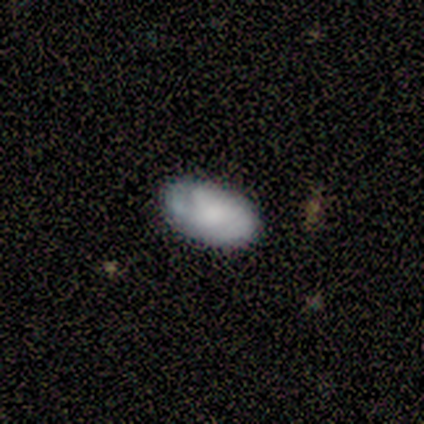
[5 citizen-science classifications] smooth_or_featured: smooth (p=1.00)
how_rounded: in between (p=1.00)
merging: none (p=1.00)